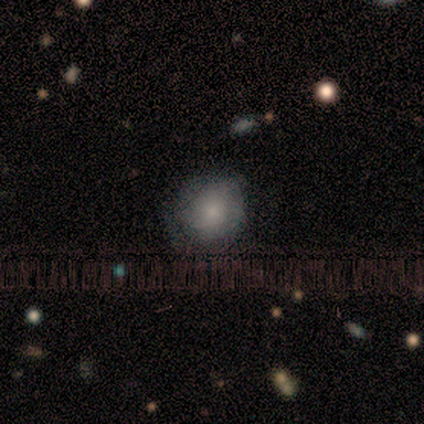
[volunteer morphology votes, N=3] Smooth or featured: smooth — 100%
How rounded: round — 67% (in between — 33%)
Merging: none — 67% (minor disturbance — 33%)